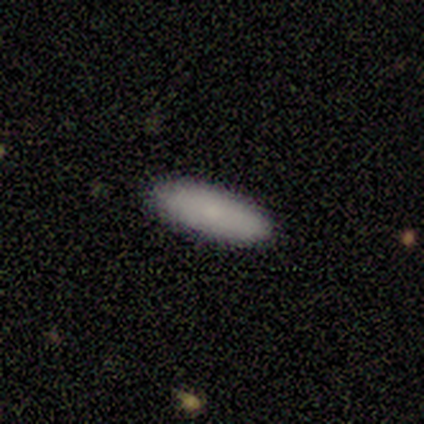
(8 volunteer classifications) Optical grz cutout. It shows a smooth galaxy with no disk features (75%) that is in between round and cigar-shaped (50%, tied with cigar-shaped). Merging: none (100%).